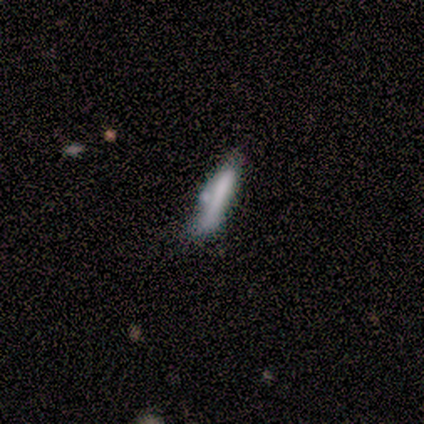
This is clearly a smooth galaxy (100%). How rounded: clearly cigar-shaped (100%). Merging: marginally none (40%, tied with minor disturbance).